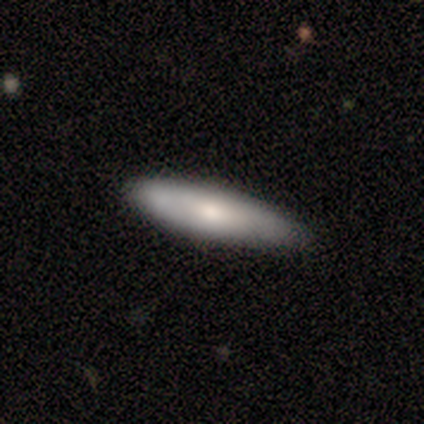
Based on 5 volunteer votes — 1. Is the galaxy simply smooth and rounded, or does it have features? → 60% smooth, 40% featured or disk, 0% star or artifact.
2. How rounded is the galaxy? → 67% cigar-shaped, 33% in between, 0% round.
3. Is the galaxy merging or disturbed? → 60% none, 40% minor disturbance, 0% major disturbance, 0% merger.